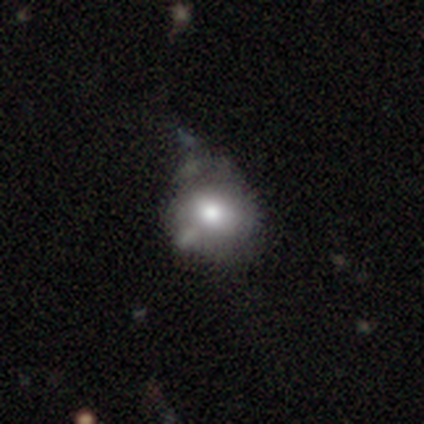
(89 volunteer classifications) Smooth or featured? smooth (60%)
How rounded? round (81%)
Merging? minor disturbance (38%)